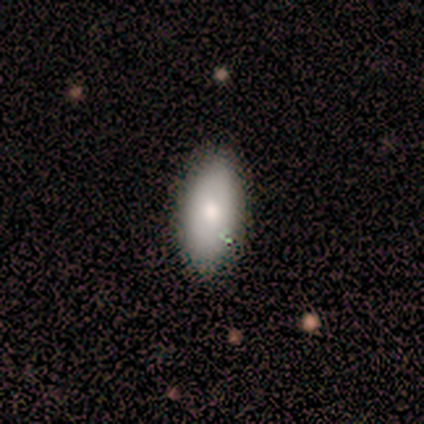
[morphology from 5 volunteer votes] This appears to be a smooth galaxy with no disk features (60%) that is in between round and cigar-shaped (100%). Merging: none (80%).